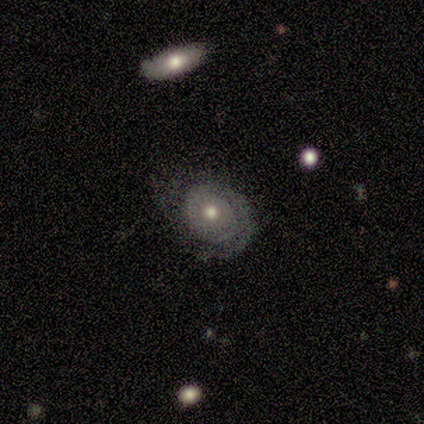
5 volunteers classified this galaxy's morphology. Smooth or featured: featured or disk — 80% (smooth — 20%)
Edge-on disk: no — 100%
Bar: no — 75% (weak — 25%)
Spiral arms: yes — 75% (no — 25%)
Spiral winding: tight — 100%
Spiral arm count: 1 — 100%
Bulge size: moderate — 75% (small — 25%)
Merging: minor disturbance — 60% (none — 20%)